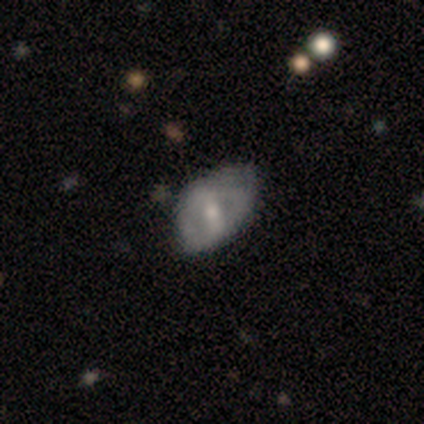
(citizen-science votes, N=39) smooth_or_featured: featured or disk (p=0.51) [alt: smooth p=0.44]
disk_edge_on: no (p=0.95) [alt: yes p=0.05]
bar: weak (p=0.47) [alt: strong p=0.26]
has_spiral_arms: no (p=0.63) [alt: yes p=0.37]
bulge_size: moderate (p=0.53) [alt: small p=0.47]
merging: minor disturbance (p=0.46) [alt: none p=0.38]